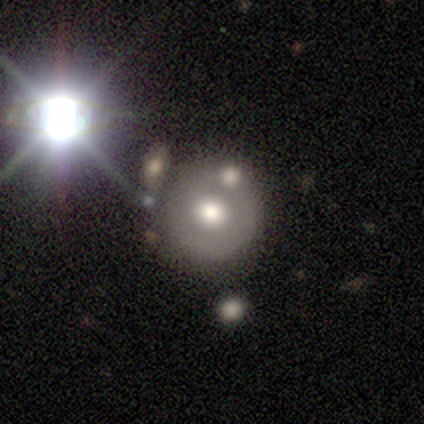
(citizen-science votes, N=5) smooth_or_featured: featured or disk (p=0.80) [alt: star or artifact p=0.20]
disk_edge_on: no (p=1.00)
bar: no (p=0.75) [alt: strong p=0.25]
has_spiral_arms: no (p=1.00)
bulge_size: large (p=0.50) [tied with: moderate p=0.50]
merging: minor disturbance (p=0.50) [alt: none p=0.25]